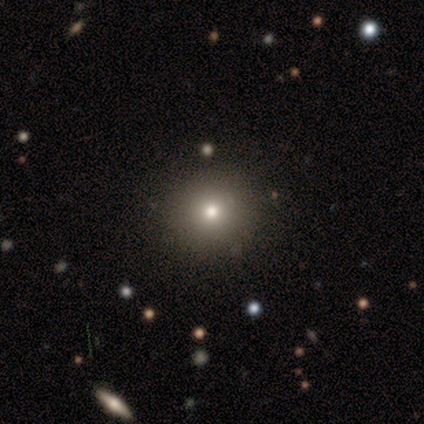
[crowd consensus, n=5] Smooth or featured: smooth — 40% (tied with star or artifact — 40%)
How rounded: round — 100%
Merging: none — 100%